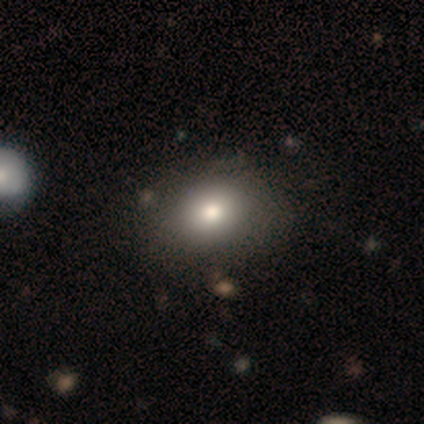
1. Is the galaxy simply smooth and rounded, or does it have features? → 80% smooth, 20% star or artifact, 0% featured or disk.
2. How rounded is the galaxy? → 100% in between, 0% round, 0% cigar-shaped.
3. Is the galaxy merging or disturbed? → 75% none, 25% major disturbance, 0% minor disturbance, 0% merger.